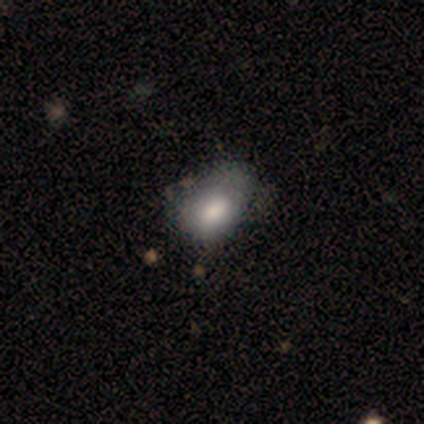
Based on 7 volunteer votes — smooth-or-featured: smooth: 71% | featured or disk: 29% | star or artifact: 0%
  how-rounded: in between: 80% | round: 20% | cigar-shaped: 0%
  merging: minor disturbance: 57% | none: 29% | major disturbance: 14% | merger: 0%